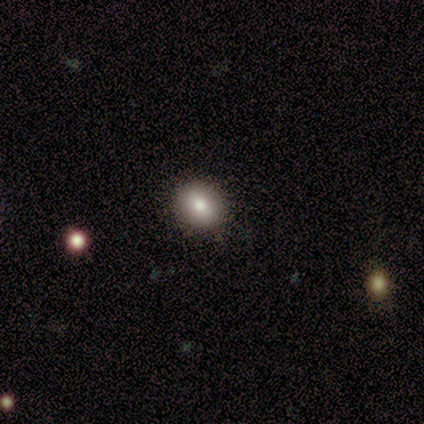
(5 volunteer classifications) Smooth or featured? smooth (60%)
How rounded? round (67%)
Merging? none (50%, tied with minor disturbance)